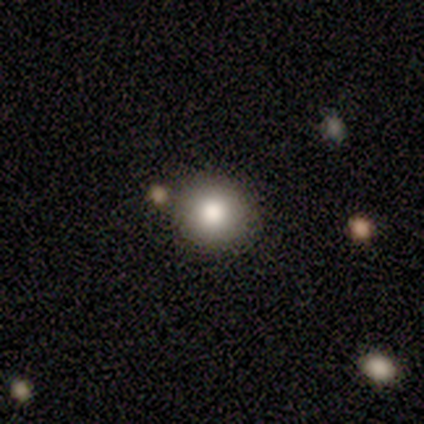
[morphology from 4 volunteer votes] This appears to be a smooth galaxy with no disk features (50%, tied with star or artifact) that is round (100%). Merging: none (100%).